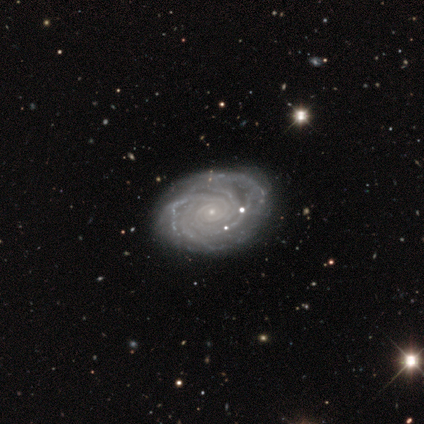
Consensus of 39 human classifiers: This appears to be a featured or disk galaxy (95%) with no bar (97%), more than 4 (40%) tight (83%) spiral arms (100%) and a small central bulge (86%). Merging: none (74%).